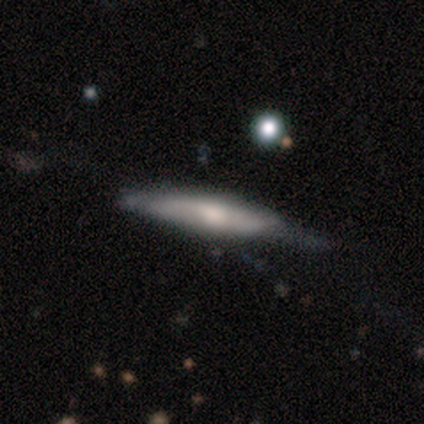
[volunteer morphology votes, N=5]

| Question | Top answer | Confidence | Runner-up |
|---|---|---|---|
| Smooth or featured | featured or disk | 80% | smooth (20%) |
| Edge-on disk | yes | 100% | — |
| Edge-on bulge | none | 50% | tied: rounded (50%) |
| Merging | none | 40% | tied: minor disturbance (40%) |